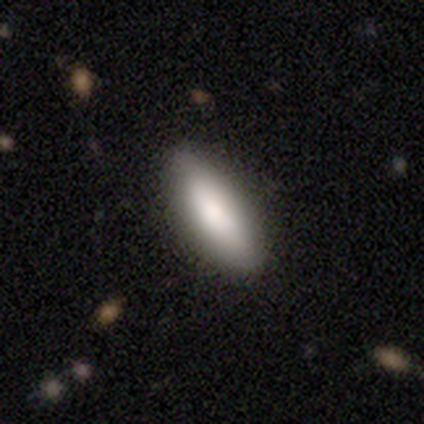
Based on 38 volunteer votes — Smooth or featured? 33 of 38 (87%) said smooth. How rounded? 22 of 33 (67%) said in between. Merging? 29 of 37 (78%) said none.